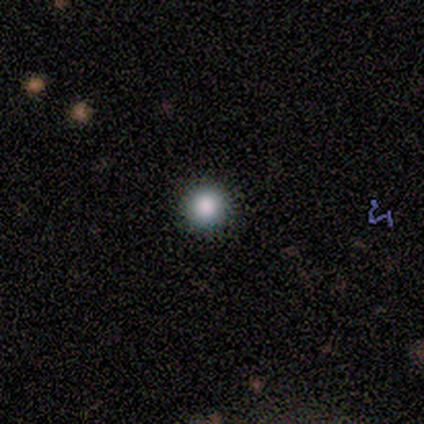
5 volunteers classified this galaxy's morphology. Overall: smooth (100%). How rounded: round (100%). Merging: none (100%).